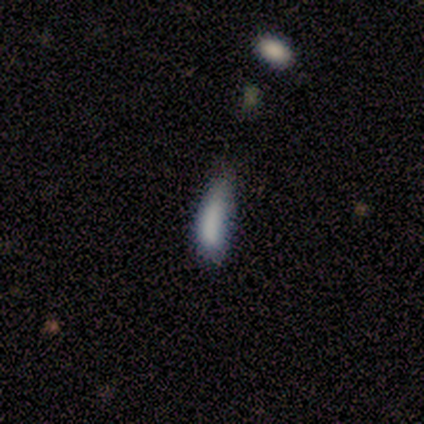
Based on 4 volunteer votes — Smooth or featured? 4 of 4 (100%) said smooth. How rounded? 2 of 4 (50%) said in between. Merging? 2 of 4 (50%, tied with minor disturbance) said none.